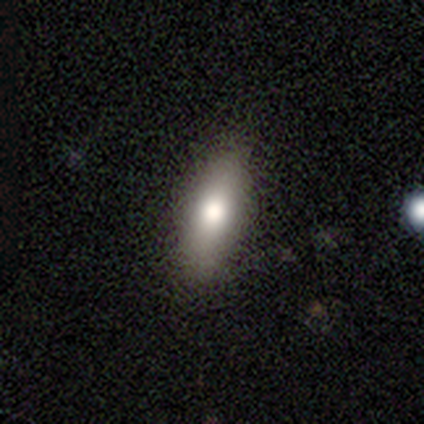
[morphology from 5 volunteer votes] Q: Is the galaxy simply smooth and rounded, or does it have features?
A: smooth — 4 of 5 (80%).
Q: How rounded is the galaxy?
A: in between — 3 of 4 (75%).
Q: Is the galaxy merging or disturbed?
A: none — 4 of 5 (80%).